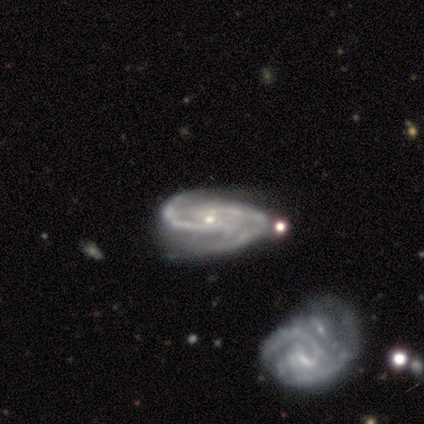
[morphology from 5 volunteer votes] Smooth or featured? 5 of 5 (100%) said featured or disk. Edge-on disk? 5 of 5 (100%) said no. Bar? 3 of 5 (60%) said no. Spiral arms? 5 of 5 (100%) said yes. Spiral winding? 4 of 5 (80%) said medium. Spiral arm count? 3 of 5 (60%) said 2. Bulge size? 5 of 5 (100%) said small. Merging? 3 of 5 (60%) said none.